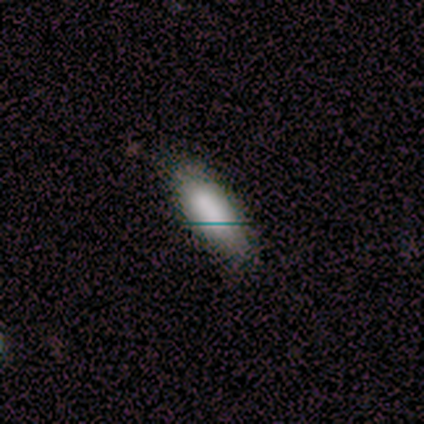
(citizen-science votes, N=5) Smooth or featured? 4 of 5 (80%) said smooth. How rounded? 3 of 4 (75%) said in between. Merging? 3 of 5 (60%) said none.